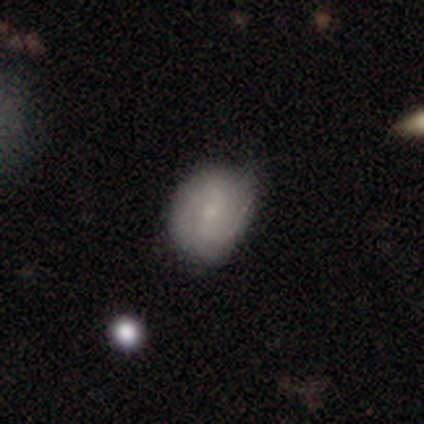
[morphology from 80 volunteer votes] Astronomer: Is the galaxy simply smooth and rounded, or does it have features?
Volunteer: featured or disk — 49% (runner-up: smooth, 45%).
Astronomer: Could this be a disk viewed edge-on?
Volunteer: no — 100%.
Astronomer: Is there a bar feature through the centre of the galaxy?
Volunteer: weak — 54% (runner-up: no, 33%).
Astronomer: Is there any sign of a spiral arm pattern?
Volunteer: yes — 82%.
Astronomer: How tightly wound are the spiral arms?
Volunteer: tight — 41% (runner-up: loose, 31%).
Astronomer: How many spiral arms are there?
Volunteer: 2 — 56%.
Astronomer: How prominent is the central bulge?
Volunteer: small — 56%.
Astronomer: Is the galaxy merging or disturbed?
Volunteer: none — 29% (runner-up: minor disturbance, 17%).